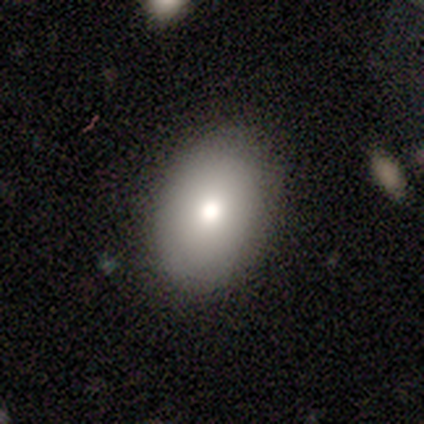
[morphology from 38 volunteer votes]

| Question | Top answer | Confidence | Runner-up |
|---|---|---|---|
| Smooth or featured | smooth | 89% | featured or disk (11%) |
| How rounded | in between | 71% | round (29%) |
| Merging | none | 95% | minor disturbance (5%) |